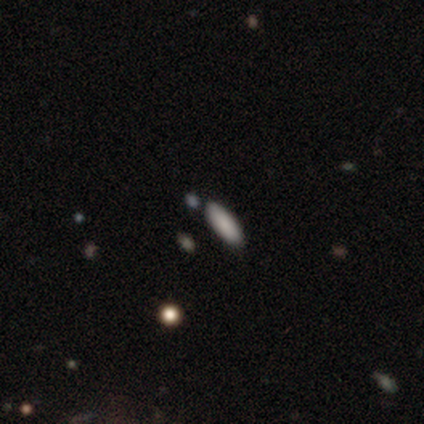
Overall: smooth (75%). How rounded: in between (67%; cigar-shaped 33%). Merging: none (100%).